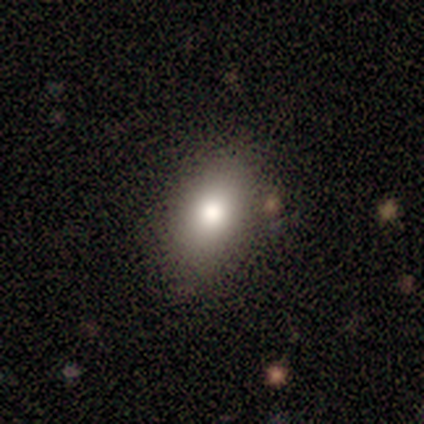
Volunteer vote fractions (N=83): A smooth galaxy with no disk features (80%) that is in between round and cigar-shaped (86%). Merging: none (82%).